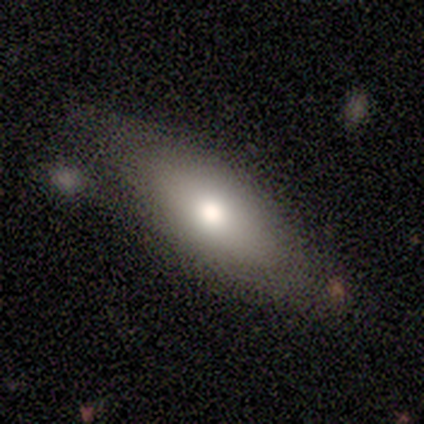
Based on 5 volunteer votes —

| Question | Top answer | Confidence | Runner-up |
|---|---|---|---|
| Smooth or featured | smooth | 60% | featured or disk (40%) |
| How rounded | in between | 100% | — |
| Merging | none | 40% | tied: minor disturbance (40%) |